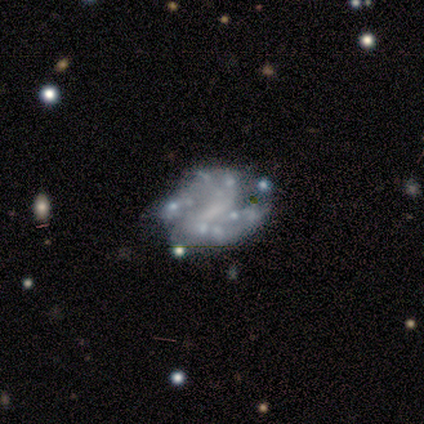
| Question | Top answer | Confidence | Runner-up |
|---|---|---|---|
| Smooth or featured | featured or disk | 100% | — |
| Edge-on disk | no | 100% | — |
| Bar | weak | 57% | no (29%) |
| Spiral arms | yes | 57% | no (43%) |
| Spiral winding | tight | 50% | tied: medium (50%) |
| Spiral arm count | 2 | 75% | 4 (25%) |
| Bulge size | none | 57% | moderate (43%) |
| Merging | none | 86% | major disturbance (14%) |